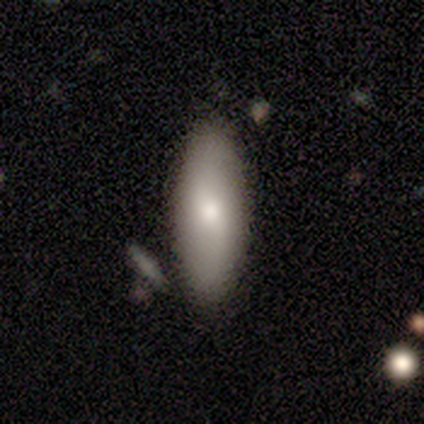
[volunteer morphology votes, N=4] This is likely a smooth galaxy (75%). How rounded: likely in between (67%). Merging: clearly none (100%).